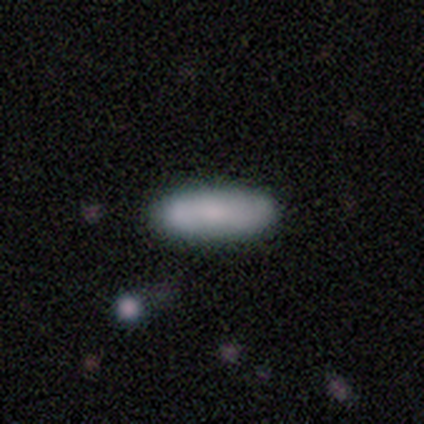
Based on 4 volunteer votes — A smooth galaxy with no disk features (75%) that is in between round and cigar-shaped (67%). Merging: none (75%).